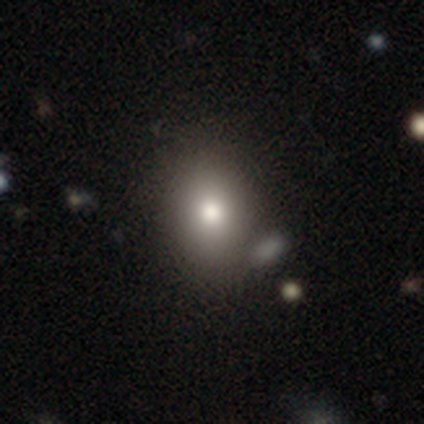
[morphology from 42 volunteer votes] type=smooth (76%); roundness=in between (66%); merging=none (64%).